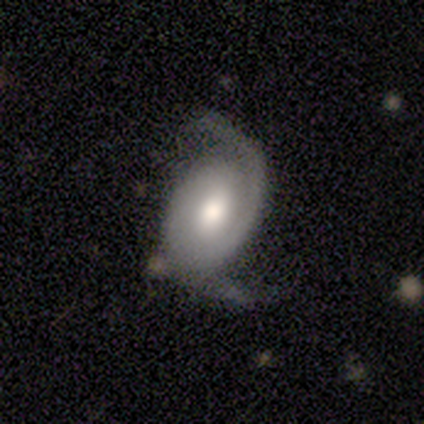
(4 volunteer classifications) Q: Smooth or featured?
A: featured or disk (100%)
Q: Edge-on disk?
A: no (75%); runner-up: yes (25%)
Q: Bar?
A: strong (33%); tied with: weak (33%); no (33%)
Q: Spiral arms?
A: yes (67%); runner-up: no (33%)
Q: Spiral winding?
A: tight (50%); tied with: medium (50%)
Q: Spiral arm count?
A: 2 (50%); tied with: can't tell (50%)
Q: Bulge size?
A: moderate (100%)
Q: Merging?
A: minor disturbance (75%); runner-up: major disturbance (25%)